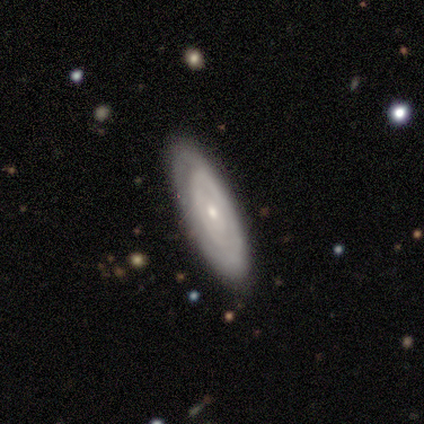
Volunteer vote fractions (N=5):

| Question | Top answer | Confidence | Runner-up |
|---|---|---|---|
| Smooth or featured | smooth | 80% | featured or disk (20%) |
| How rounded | in between | 75% | round (25%) |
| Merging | none | 100% | — |